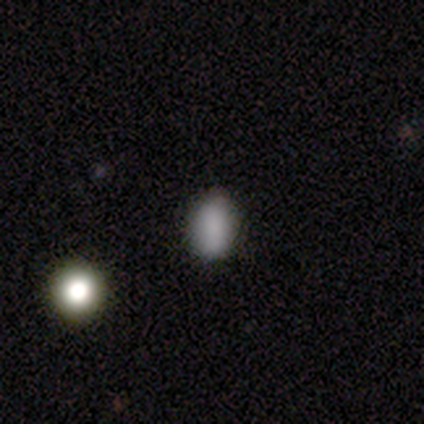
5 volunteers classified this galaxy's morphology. Volunteers were most divided on "how rounded": in between: 75%, round: 25%, cigar-shaped: 0%. More confident: smooth or featured — smooth (80%); merging — none (75%).